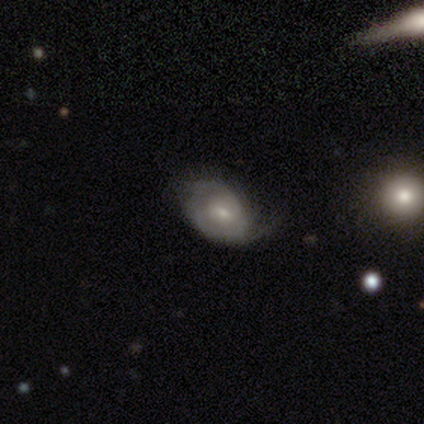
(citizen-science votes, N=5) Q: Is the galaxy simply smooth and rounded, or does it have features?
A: featured or disk — 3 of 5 (60%).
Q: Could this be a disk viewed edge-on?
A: no — 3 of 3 (100%).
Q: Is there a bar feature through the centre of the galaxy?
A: weak — 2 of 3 (67%).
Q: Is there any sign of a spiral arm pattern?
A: no — 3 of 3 (100%).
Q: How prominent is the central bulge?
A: small — 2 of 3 (67%).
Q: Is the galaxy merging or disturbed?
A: none — 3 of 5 (60%).